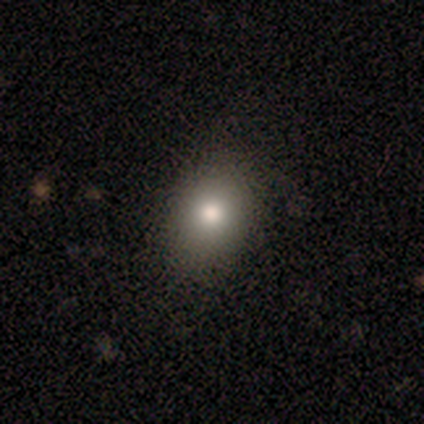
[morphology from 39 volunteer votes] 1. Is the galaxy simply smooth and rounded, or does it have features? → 74% smooth, 15% featured or disk, 10% star or artifact.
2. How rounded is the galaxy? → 48% round (tied), 48% in between (tied), 3% cigar-shaped.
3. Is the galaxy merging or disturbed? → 86% none, 11% minor disturbance, 3% major disturbance, 0% merger.